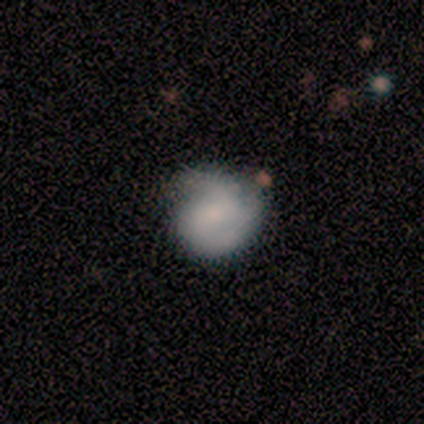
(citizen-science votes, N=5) Volunteers were most divided on "bar" (3-way tie): strong: 33%, weak: 33%, no: 33%; "spiral winding" (2-way tie): tight: 50%, medium: 50%, loose: 0%. More confident: edge-on disk — no (100%); spiral arm count — 3 (100%); spiral arms — yes (67%); bulge size — none (67%); smooth or featured — featured or disk (60%); merging — none (60%).